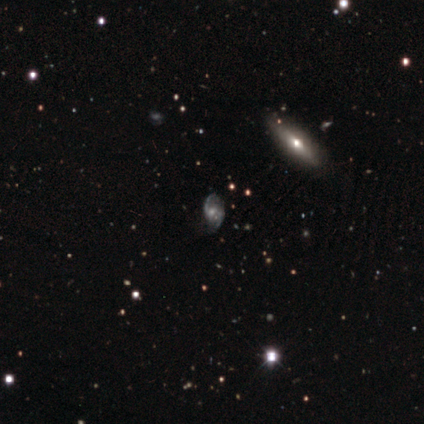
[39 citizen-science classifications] smooth-or-featured: featured or disk: 62% | star or artifact: 21% | smooth: 18%
  disk-edge-on: no: 79% | yes: 21%
    bar: no: 53% | weak: 47% | strong: 0%
    has-spiral-arms: yes: 84% | no: 16%
      spiral-winding: medium: 50% | loose: 44% | tight: 6%
      spiral-arm-count: 2: 69% | can't tell: 31% | 1: 0% | 3: 0% | 4: 0% | more than 4: 0%
    bulge-size: small: 47% | moderate: 42% | none: 11% | dominant: 0% | large: 0%
  merging: none: 58% | minor disturbance: 32% | major disturbance: 6% | merger: 3%